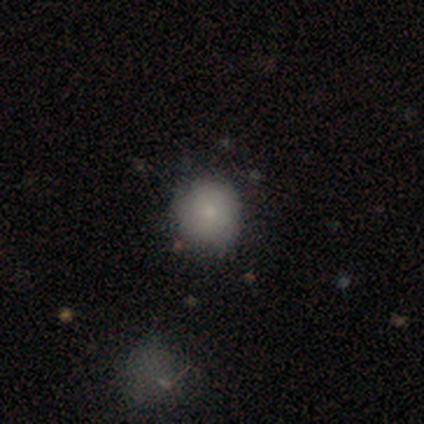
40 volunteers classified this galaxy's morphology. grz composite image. It shows a smooth galaxy with no disk features (72%) that is round (90%). Merging: none (81%).